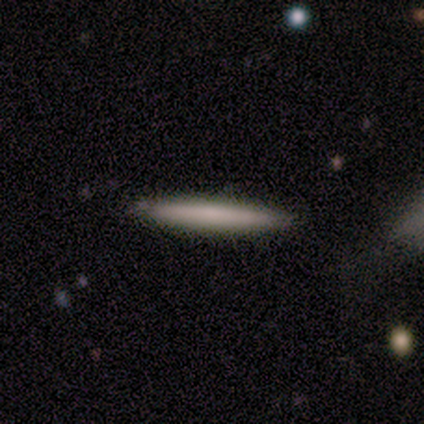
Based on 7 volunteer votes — Smooth or featured: smooth — 71% (featured or disk — 29%)
How rounded: cigar-shaped — 100%
Merging: none — 86% (minor disturbance — 14%)